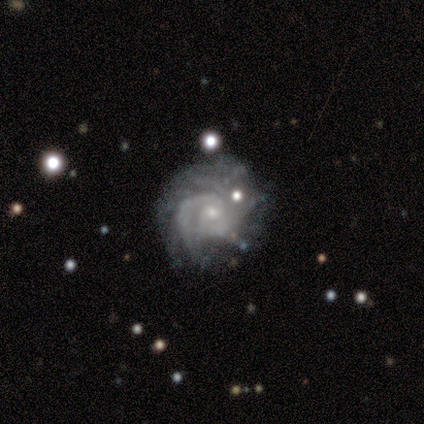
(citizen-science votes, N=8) This is clearly a featured or disk galaxy (88%). It is clearly not viewed edge-on (100%). Bar: clearly no (86%). Spiral arm pattern: clearly yes (100%). Spiral arm count: marginally can't tell (43%). Spiral winding: possibly tight (57%). Central bulge: clearly small (86%). Merging: likely none (75%).